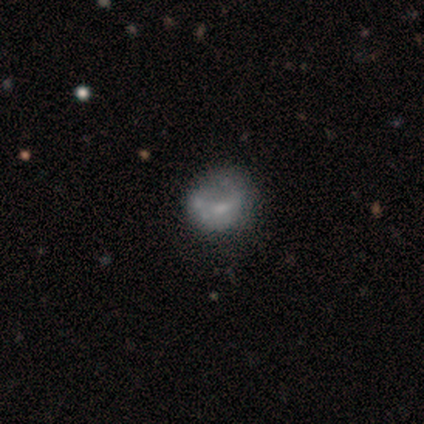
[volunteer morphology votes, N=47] featured or disk 49%, smooth 40%, star or artifact 11%. Down the decision tree: edge-on disk — no (100%); bar — no (83%); spiral arms — no (83%); bulge size — small (43%); merging — none (45%).